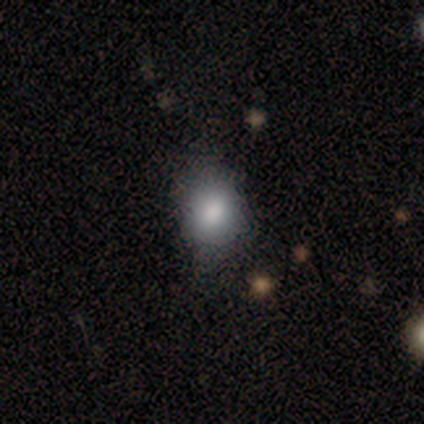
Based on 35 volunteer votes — A smooth galaxy with no disk features (83%) that is round (52%). Merging: none (73%).